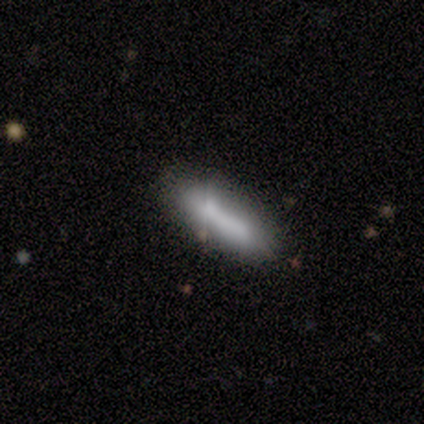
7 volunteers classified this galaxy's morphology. A smooth galaxy with no disk features (100%) that is in between round and cigar-shaped (57%). Merging: none (71%).